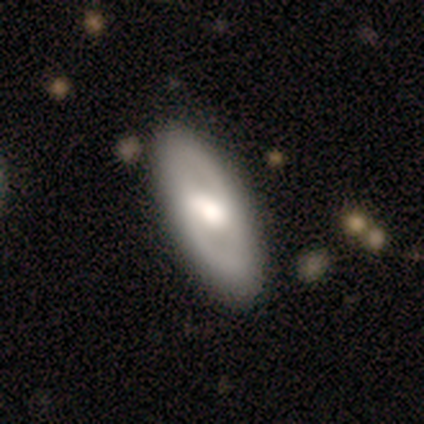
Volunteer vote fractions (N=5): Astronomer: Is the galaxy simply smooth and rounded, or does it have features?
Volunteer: smooth — 60% (runner-up: featured or disk, 40%).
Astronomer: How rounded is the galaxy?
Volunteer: in between — 67%.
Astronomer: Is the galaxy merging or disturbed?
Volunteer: none — 100%.